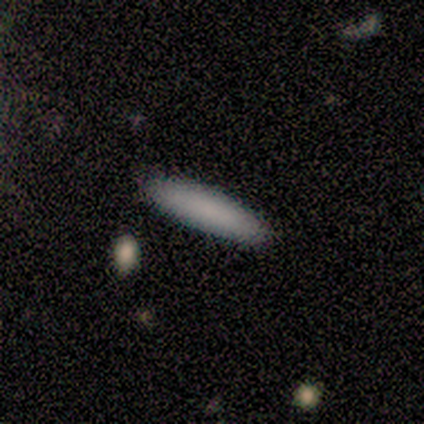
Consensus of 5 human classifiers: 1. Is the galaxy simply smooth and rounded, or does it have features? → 100% smooth, 0% featured or disk, 0% star or artifact.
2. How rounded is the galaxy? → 100% cigar-shaped, 0% round, 0% in between.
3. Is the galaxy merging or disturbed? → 80% none, 20% minor disturbance, 0% major disturbance, 0% merger.